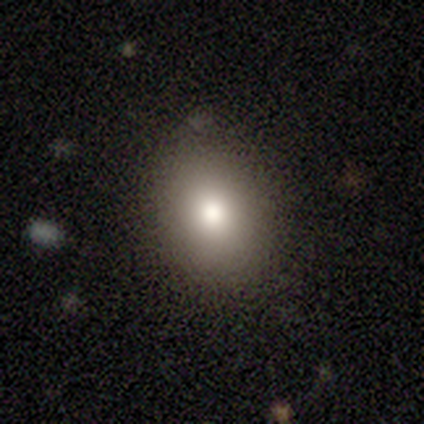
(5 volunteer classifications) smooth 100%, featured or disk 0%, star or artifact 0%. Down the decision tree: how rounded — in between (80%); merging — none (80%).